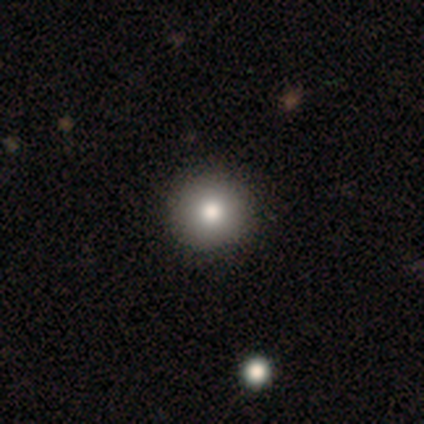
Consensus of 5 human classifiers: Smooth or featured?
  - smooth: 80% *
  - featured or disk: 20%
  - star or artifact: 0%
How rounded?
  - round: 100% *
  - in between: 0%
  - cigar-shaped: 0%
Merging?
  - none: 100% *
  - minor disturbance: 0%
  - major disturbance: 0%
  - merger: 0%